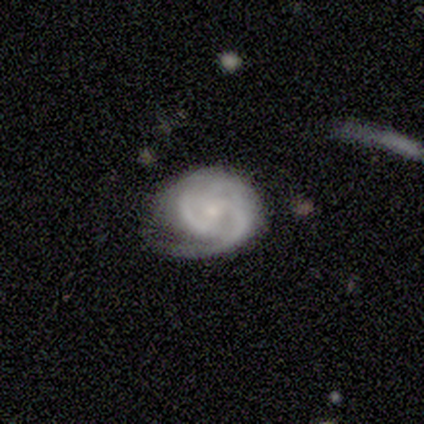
This appears to be a featured or disk galaxy (100%) with no bar (100%), tight (50%, tied with medium) spiral arms (100%) and a small central bulge (50%). Merging: none (75%).